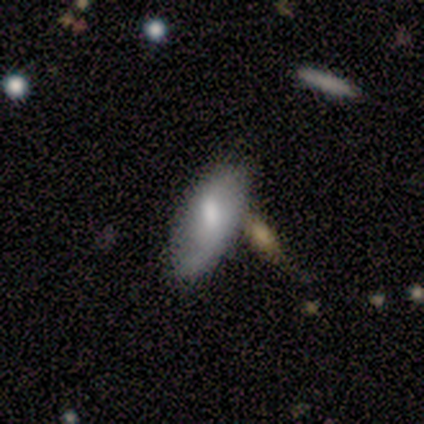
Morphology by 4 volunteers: Smooth or featured?
  - smooth: 50% * (tied)
  - featured or disk: 50% * (tied)
  - star or artifact: 0%
How rounded?
  - in between: 50% * (tied)
  - cigar-shaped: 50% * (tied)
  - round: 0%
Merging?
  - none: 50% * (tied)
  - minor disturbance: 50% * (tied)
  - major disturbance: 0%
  - merger: 0%